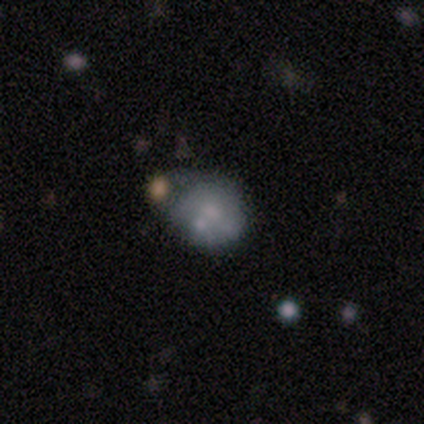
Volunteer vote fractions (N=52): smooth_or_featured: smooth (p=0.52) [alt: featured or disk p=0.40]
how_rounded: round (p=0.59) [alt: in between p=0.41]
merging: minor disturbance (p=0.42) [alt: none p=0.29]